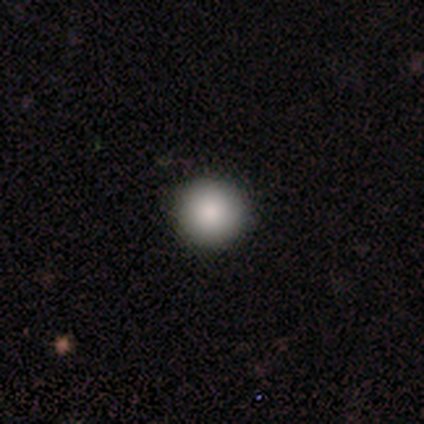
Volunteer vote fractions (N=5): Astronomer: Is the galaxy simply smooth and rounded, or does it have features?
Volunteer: smooth — 100%.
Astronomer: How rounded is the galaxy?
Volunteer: round — 100%.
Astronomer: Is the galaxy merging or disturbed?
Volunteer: none — 80%.